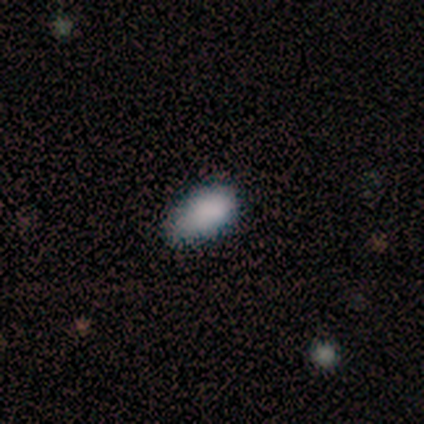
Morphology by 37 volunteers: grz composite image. It shows a smooth galaxy with no disk features (81%) that is in between round and cigar-shaped (97%). Merging: none (68%).